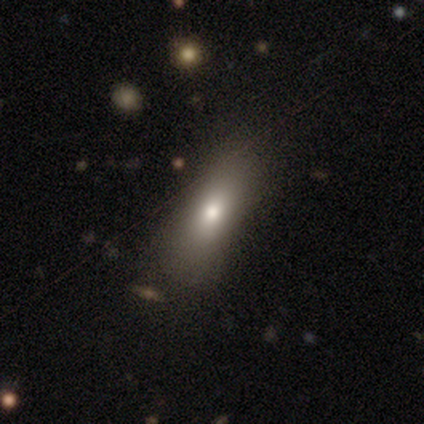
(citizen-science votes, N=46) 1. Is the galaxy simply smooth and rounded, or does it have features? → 67% smooth, 17% star or artifact, 15% featured or disk.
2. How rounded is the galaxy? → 65% in between, 32% cigar-shaped, 3% round.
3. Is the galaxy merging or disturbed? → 87% none, 11% minor disturbance, 3% major disturbance, 0% merger.